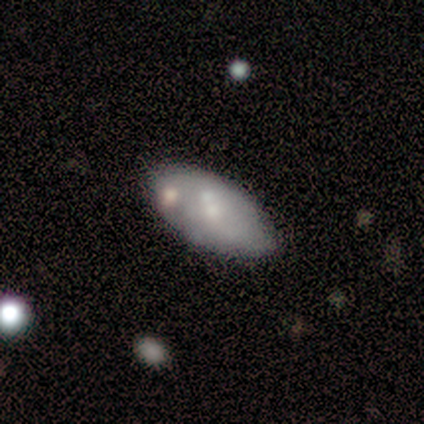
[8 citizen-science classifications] Smooth or featured?
  - smooth: 50% *
  - featured or disk: 38%
  - star or artifact: 12%
How rounded?
  - in between: 100% *
  - round: 0%
  - cigar-shaped: 0%
Merging?
  - none: 57% *
  - minor disturbance: 43%
  - major disturbance: 0%
  - merger: 0%